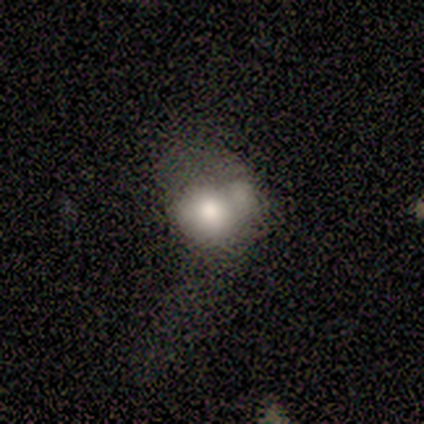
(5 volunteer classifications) A star or artifact, not a galaxy (80%).

Vote fractions:
- Smooth or featured? star or artifact: 80% / smooth: 20% / featured or disk: 0%